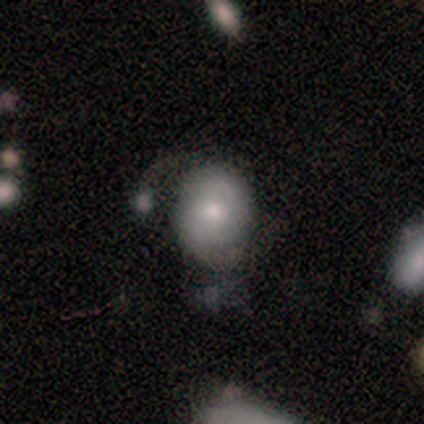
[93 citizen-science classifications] Smooth or featured: smooth — 57% (featured or disk — 38%)
How rounded: round — 55% (in between — 45%)
Merging: minor disturbance — 36% (none — 32%)